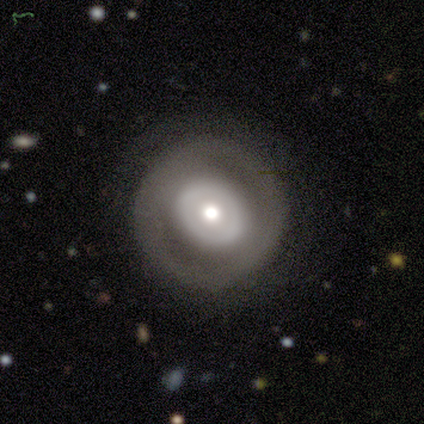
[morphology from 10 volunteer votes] Q: Smooth or featured?
A: featured or disk (60%); runner-up: smooth (30%)
Q: Edge-on disk?
A: no (100%)
Q: Bar?
A: no (100%)
Q: Spiral arms?
A: no (83%); runner-up: yes (17%)
Q: Bulge size?
A: moderate (83%); runner-up: small (17%)
Q: Merging?
A: none (89%); runner-up: minor disturbance (11%)